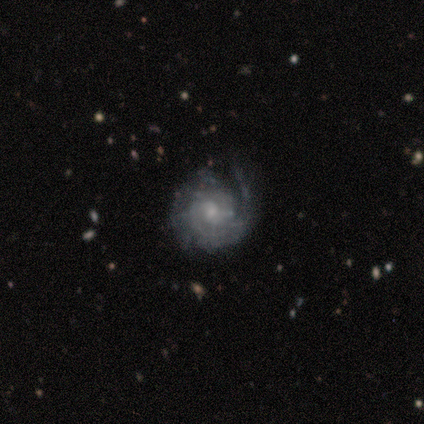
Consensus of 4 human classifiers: featured or disk 100%, smooth 0%, star or artifact 0%. Down the decision tree: edge-on disk — no (100%); bar — no (100%); spiral arms — yes (100%); spiral arm count — can't tell (75%); spiral winding — tight (75%); bulge size — small (75%); merging — minor disturbance (75%).